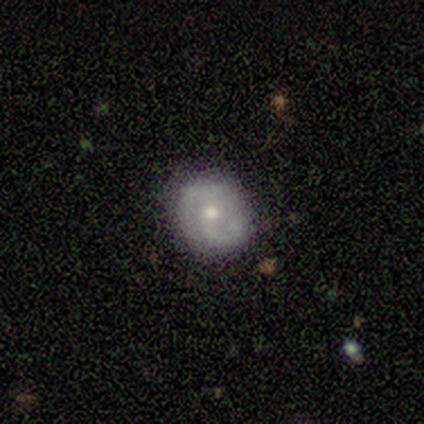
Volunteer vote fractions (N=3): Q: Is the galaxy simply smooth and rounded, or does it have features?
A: featured or disk — 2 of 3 (67%).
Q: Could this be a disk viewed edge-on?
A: no — 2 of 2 (100%).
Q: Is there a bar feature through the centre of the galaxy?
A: no — 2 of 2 (100%).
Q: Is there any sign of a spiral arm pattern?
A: yes — 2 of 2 (100%).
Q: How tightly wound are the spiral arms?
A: medium — 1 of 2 (50%, tied with loose).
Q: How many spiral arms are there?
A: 2 — 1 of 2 (50%, tied with can't tell).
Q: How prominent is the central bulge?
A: moderate — 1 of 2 (50%, tied with small).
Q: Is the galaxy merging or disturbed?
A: none — 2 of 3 (67%).